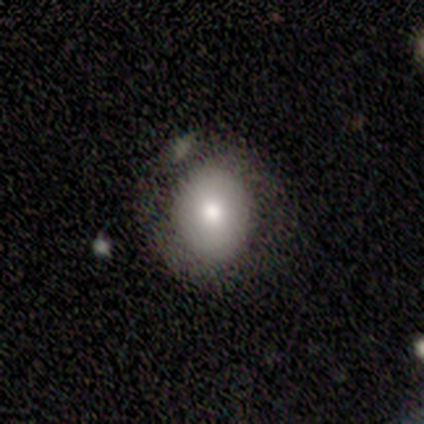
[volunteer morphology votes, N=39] smooth-or-featured: smooth: 67% | featured or disk: 26% | star or artifact: 8%
  how-rounded: round: 73% | in between: 27% | cigar-shaped: 0%
  merging: none: 78% | minor disturbance: 8% | major disturbance: 8% | merger: 6%